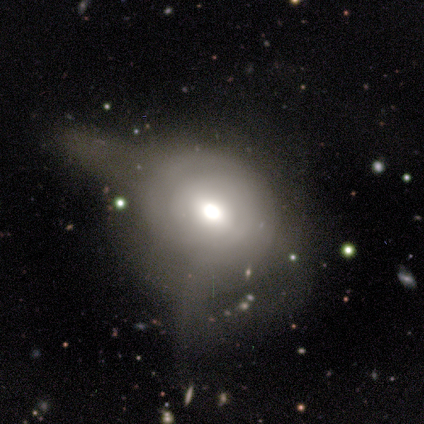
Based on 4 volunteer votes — smooth_or_featured: smooth (p=0.50) [alt: featured or disk p=0.25]
how_rounded: round (p=1.00)
merging: major disturbance (p=0.67) [alt: minor disturbance p=0.33]